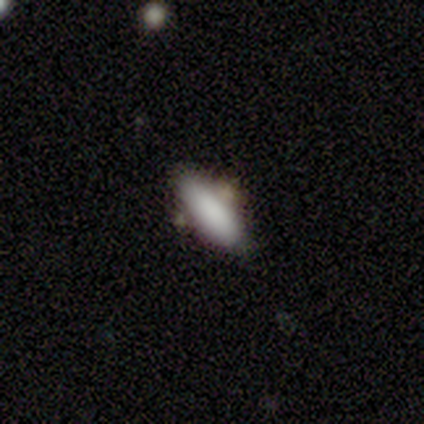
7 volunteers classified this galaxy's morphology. Smooth or featured?
  - smooth: 86% *
  - star or artifact: 14%
  - featured or disk: 0%
How rounded?
  - in between: 83% *
  - cigar-shaped: 17%
  - round: 0%
Merging?
  - none: 83% *
  - merger: 17%
  - minor disturbance: 0%
  - major disturbance: 0%